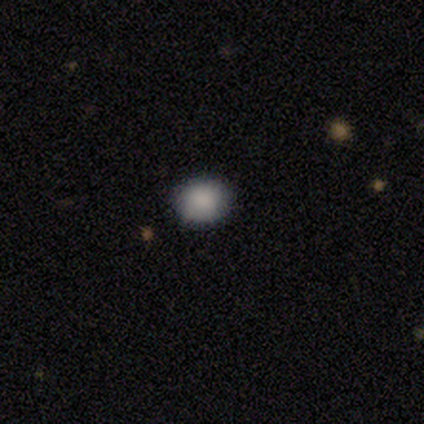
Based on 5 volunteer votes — smooth_or_featured: smooth (p=0.80) [alt: star or artifact p=0.20]
how_rounded: round (p=0.75) [alt: in between p=0.25]
merging: none (p=1.00)